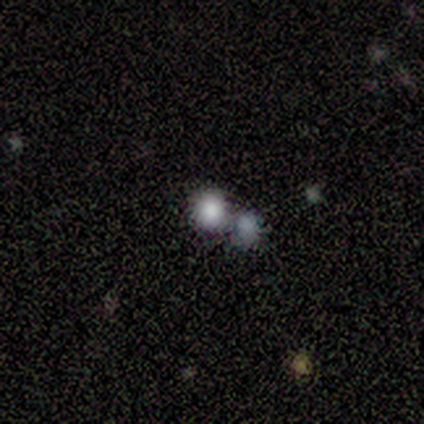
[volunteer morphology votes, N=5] Volunteers were most divided on "smooth or featured": smooth: 60%, featured or disk: 40%, star or artifact: 0%. More confident: how rounded — round (100%); merging — none (60%).